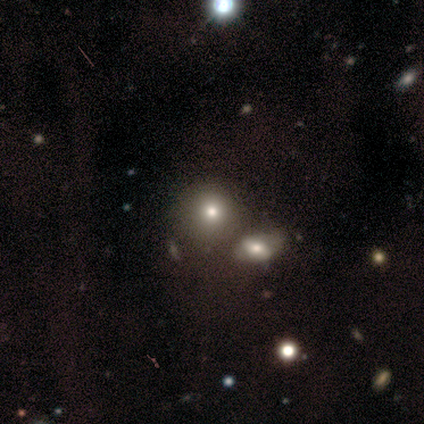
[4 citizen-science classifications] Volunteers were most divided on "how rounded": in between: 67%, round: 33%, cigar-shaped: 0%. More confident: smooth or featured — smooth (75%); merging — none (67%).